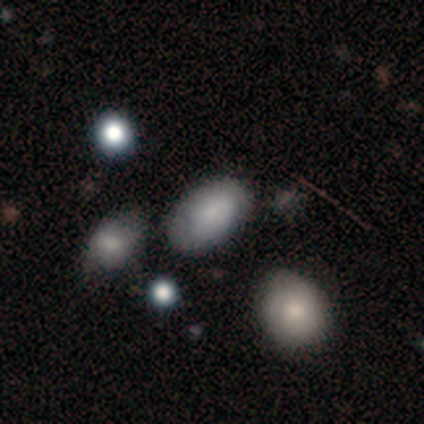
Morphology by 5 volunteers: Volunteers were most divided on "how rounded": in between: 75%, round: 25%, cigar-shaped: 0%. More confident: smooth or featured — smooth (80%); merging — none (80%).